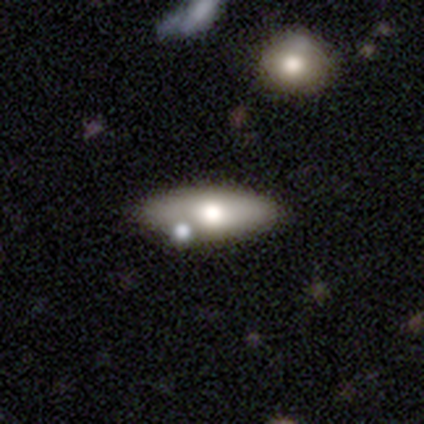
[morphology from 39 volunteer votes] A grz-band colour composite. It shows a smooth galaxy with no disk features (77%) that is in between round and cigar-shaped (80%). Merging: none (66%).